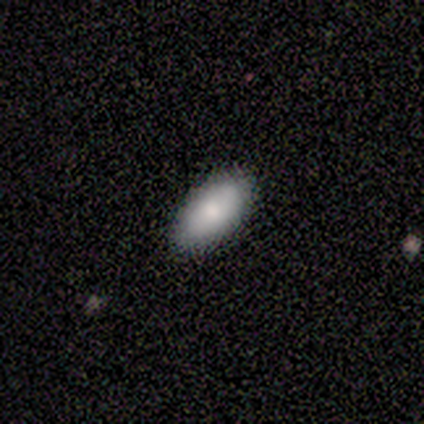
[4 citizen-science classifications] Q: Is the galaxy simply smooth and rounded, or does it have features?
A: smooth — 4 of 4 (100%).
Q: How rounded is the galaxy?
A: in between — 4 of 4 (100%).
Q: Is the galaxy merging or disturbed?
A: none — 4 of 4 (100%).